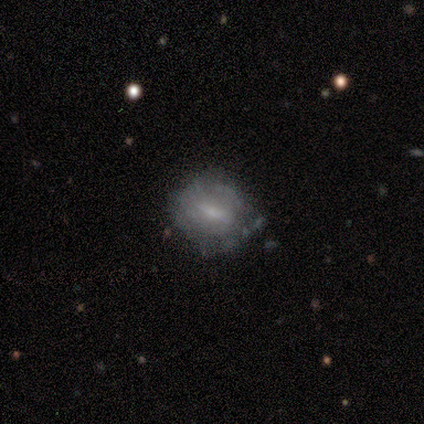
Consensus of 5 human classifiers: Smooth or featured? featured or disk (60%)
Edge-on disk? no (100%)
Bar? weak (67%)
Spiral arms? no (100%)
Bulge size? small (67%)
Merging? none (50%, tied with minor disturbance)